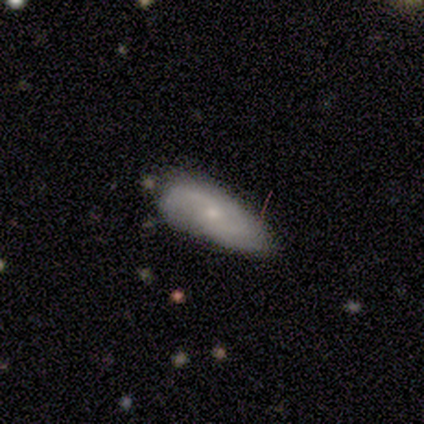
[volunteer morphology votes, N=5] This is clearly a smooth galaxy (80%). How rounded: clearly in between (100%). Merging: likely none (60%).